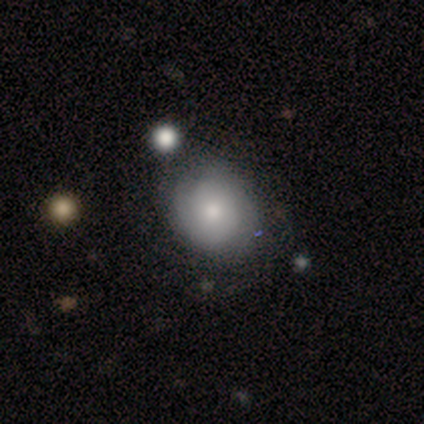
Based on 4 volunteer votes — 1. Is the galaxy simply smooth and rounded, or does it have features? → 100% smooth, 0% featured or disk, 0% star or artifact.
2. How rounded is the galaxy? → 100% round, 0% in between, 0% cigar-shaped.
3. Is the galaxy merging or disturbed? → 75% none, 25% minor disturbance, 0% major disturbance, 0% merger.